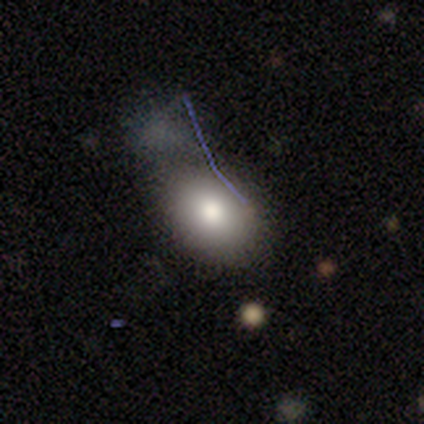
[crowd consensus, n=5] Smooth or featured? smooth (40%, tied with featured or disk)
How rounded? in between (100%)
Merging? minor disturbance (50%)